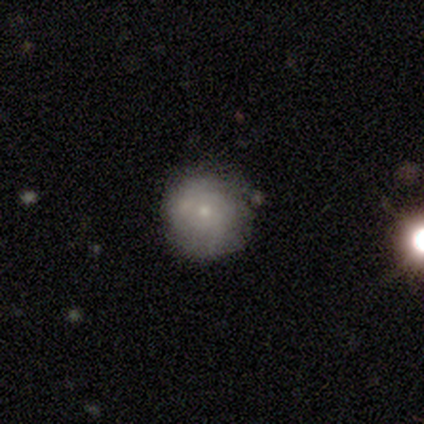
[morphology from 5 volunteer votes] A smooth galaxy with no disk features (100%) that is round (80%).

Vote fractions:
- Smooth or featured? smooth: 100% / featured or disk: 0% / star or artifact: 0%
- How rounded? round: 80% / in between: 20% / cigar-shaped: 0%
- Merging? none: 60% / minor disturbance: 20% / merger: 20% / major disturbance: 0%